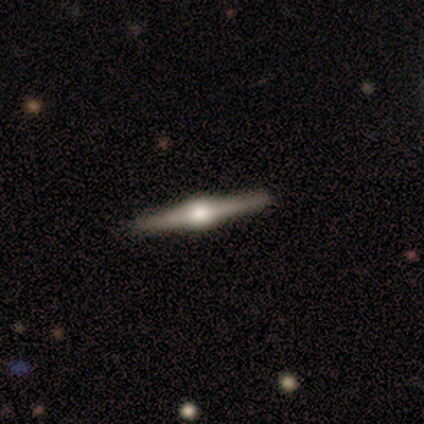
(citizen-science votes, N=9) This appears to be a featured or disk galaxy (100%) viewed edge-on (100%) with a rounded central bulge (100%). Merging: none (89%).